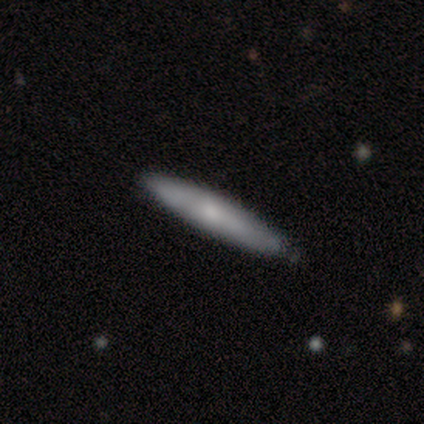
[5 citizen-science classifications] Smooth or featured? 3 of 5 (60%) said featured or disk. Edge-on disk? 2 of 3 (67%) said yes. Edge-on bulge? 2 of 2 (100%) said rounded. Merging? 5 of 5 (100%) said none.